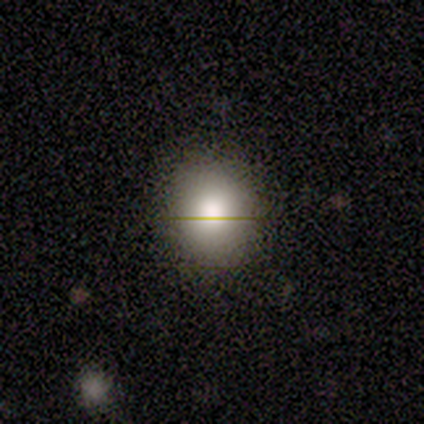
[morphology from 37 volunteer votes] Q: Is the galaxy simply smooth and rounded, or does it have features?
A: smooth — 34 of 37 (92%).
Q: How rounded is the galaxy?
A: round — 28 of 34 (82%).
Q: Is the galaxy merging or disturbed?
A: none — 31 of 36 (86%).